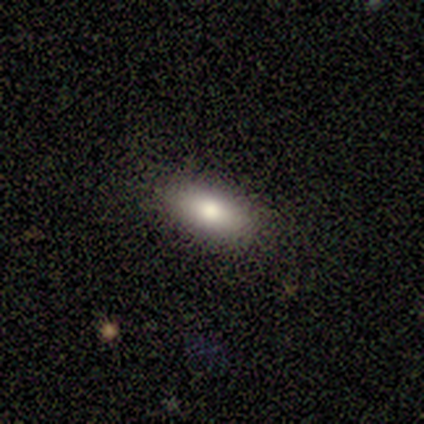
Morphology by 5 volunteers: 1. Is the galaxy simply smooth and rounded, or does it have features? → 100% smooth, 0% featured or disk, 0% star or artifact.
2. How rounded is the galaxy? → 80% in between, 20% cigar-shaped, 0% round.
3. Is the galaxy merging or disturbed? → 60% none, 40% minor disturbance, 0% major disturbance, 0% merger.